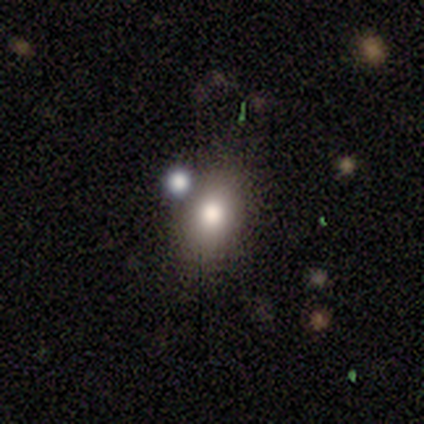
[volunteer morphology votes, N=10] A smooth galaxy with no disk features (80%) that is in between round and cigar-shaped (88%). Merging: none (78%).